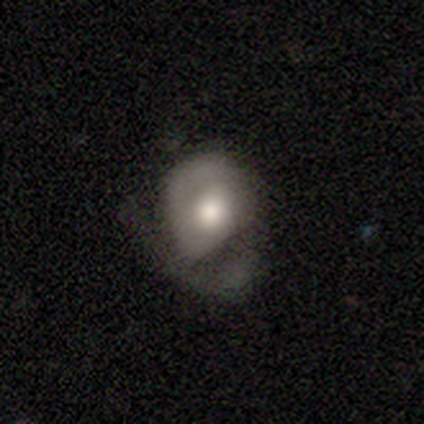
Smooth or featured? 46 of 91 (51%) said smooth. How rounded? 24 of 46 (52%) said in between. Merging? 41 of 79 (52%) said major disturbance.